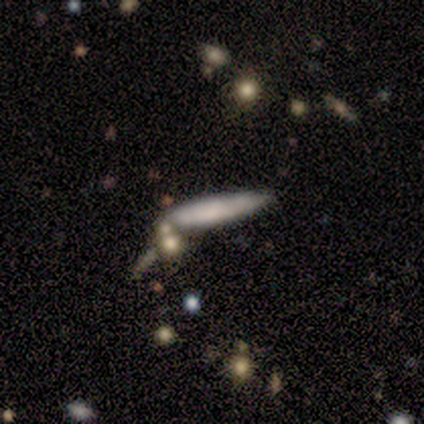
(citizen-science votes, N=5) Overall: smooth (60%; featured or disk 40%). How rounded: cigar-shaped (100%). Merging: none (60%; minor disturbance 40%).